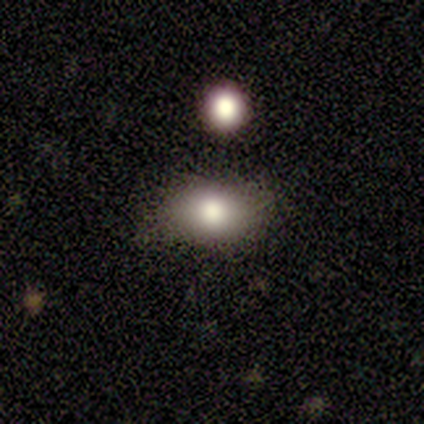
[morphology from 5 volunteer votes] A smooth galaxy with no disk features (80%) that is in between round and cigar-shaped (100%).

Vote fractions:
- Smooth or featured? smooth: 80% / featured or disk: 20% / star or artifact: 0%
- How rounded? in between: 100% / round: 0% / cigar-shaped: 0%
- Merging? none: 100% / minor disturbance: 0% / major disturbance: 0% / merger: 0%